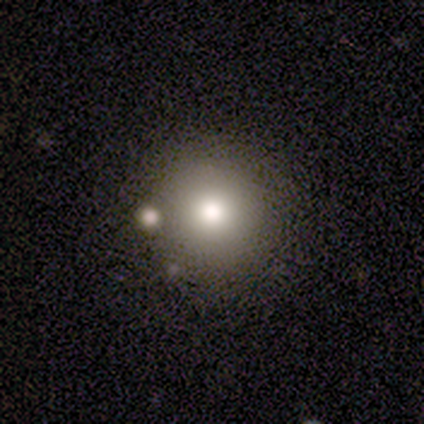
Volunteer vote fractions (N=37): Volunteers were most divided on "smooth or featured": smooth: 65%, star or artifact: 27%, featured or disk: 8%. More confident: how rounded — round (96%); merging — none (89%).